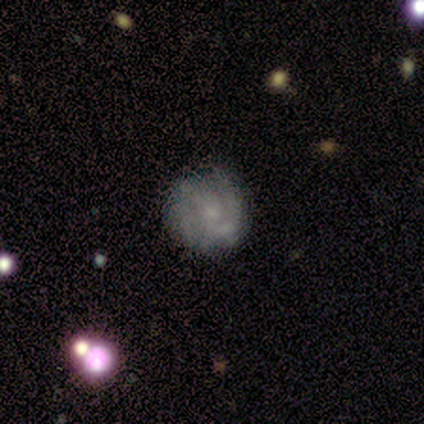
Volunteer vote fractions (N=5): A featured or disk galaxy (80%) with no bar (50%), medium (67%) spiral arms (75%) and a small central bulge (100%).

Vote fractions:
- Smooth or featured? featured or disk: 80% / smooth: 20% / star or artifact: 0%
- Edge-on disk? no: 100% / yes: 0%
- Bar? no: 50% / strong: 25% / weak: 25%
- Spiral arms? yes: 75% / no: 25%
- Spiral winding? medium: 67% / tight: 33% / loose: 0%
- Spiral arm count? can't tell: 67% / 2: 33% / 1: 0% / 3: 0% / 4: 0% / more than 4: 0%
- Bulge size? small: 100% / dominant: 0% / large: 0% / moderate: 0% / none: 0%
- Merging? none: 60% / minor disturbance: 20% / major disturbance: 20% / merger: 0%